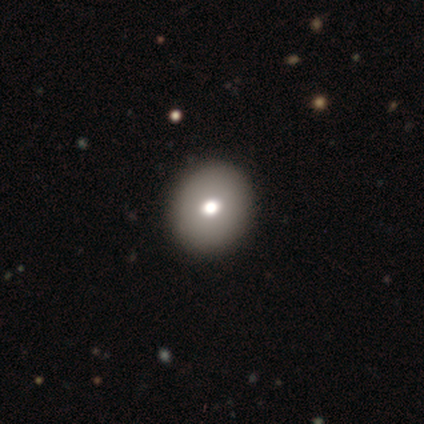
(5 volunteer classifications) smooth 60%, star or artifact 40%, featured or disk 0%. Down the decision tree: how rounded — round (67%); merging — none (67%).